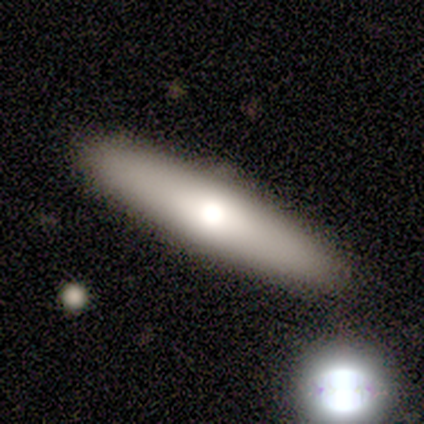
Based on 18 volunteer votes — smooth-or-featured: smooth: 61% | featured or disk: 39% | star or artifact: 0%
  how-rounded: cigar-shaped: 100% | round: 0% | in between: 0%
  merging: none: 83% | merger: 11% | minor disturbance: 6% | major disturbance: 0%